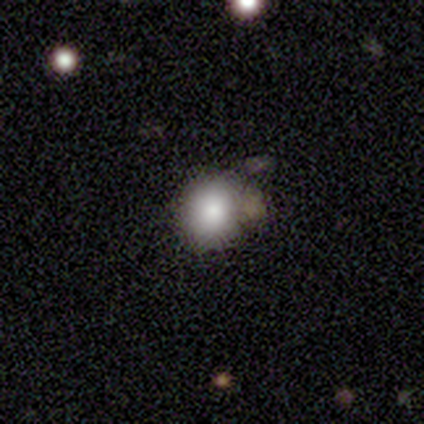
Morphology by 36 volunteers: Q: Smooth or featured?
A: smooth (83%); runner-up: star or artifact (17%)
Q: How rounded?
A: round (80%); runner-up: in between (17%)
Q: Merging?
A: none (57%); runner-up: minor disturbance (27%)